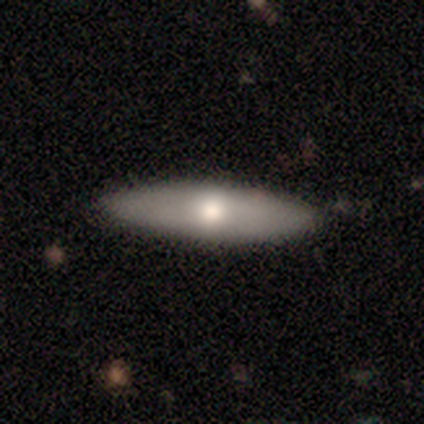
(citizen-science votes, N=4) Morphology: type=smooth (100%); roundness=cigar-shaped (75%); merging=none (100%).